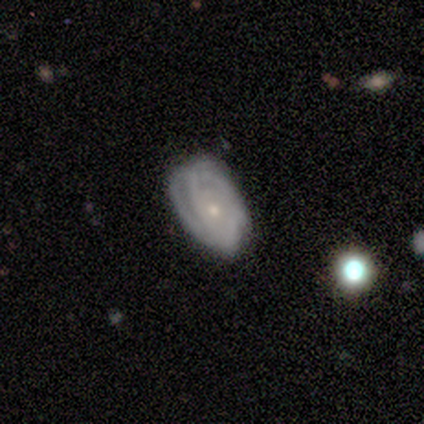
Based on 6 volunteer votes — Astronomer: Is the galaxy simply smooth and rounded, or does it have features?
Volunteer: featured or disk — 100%.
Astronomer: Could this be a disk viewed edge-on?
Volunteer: no — 100%.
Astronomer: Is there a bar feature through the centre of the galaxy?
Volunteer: no — 100%.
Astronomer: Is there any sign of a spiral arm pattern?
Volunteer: yes — 83%.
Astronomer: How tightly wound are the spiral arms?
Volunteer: tight — 80%.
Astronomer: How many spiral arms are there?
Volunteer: can't tell — 60%.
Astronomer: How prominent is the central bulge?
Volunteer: small — 83%.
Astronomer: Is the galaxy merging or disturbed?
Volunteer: minor disturbance — 67%.